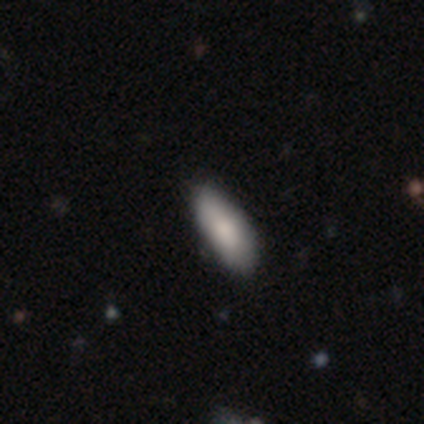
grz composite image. It shows a smooth galaxy with no disk features (82%) that is in between round and cigar-shaped (89%). Merging: none (82%).